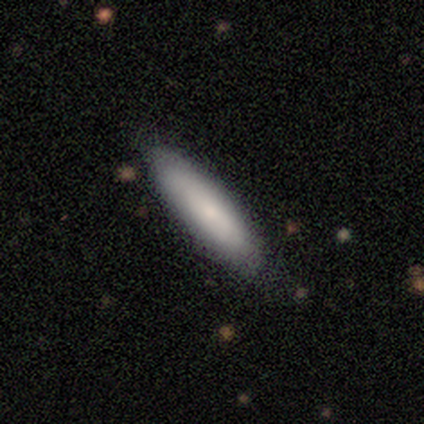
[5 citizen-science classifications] smooth 80%, star or artifact 20%, featured or disk 0%. Down the decision tree: how rounded — in between (50%, tied with cigar-shaped); merging — none (100%).